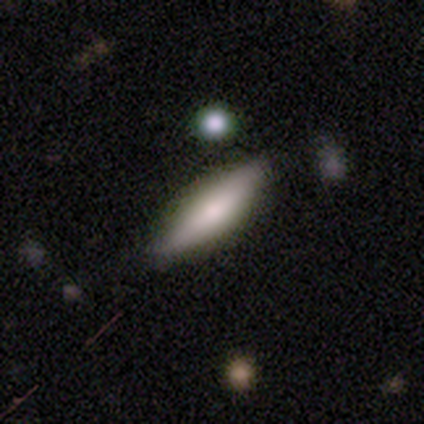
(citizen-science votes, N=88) smooth-or-featured: smooth: 58% | featured or disk: 32% | star or artifact: 10%
  how-rounded: cigar-shaped: 63% | in between: 37% | round: 0%
  merging: none: 80% | minor disturbance: 14% | merger: 4% | major disturbance: 3%